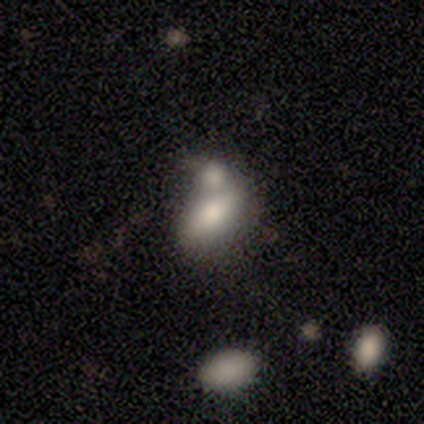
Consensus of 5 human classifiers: smooth 60%, featured or disk 40%, star or artifact 0%. Down the decision tree: how rounded — in between (100%); merging — merger (60%).